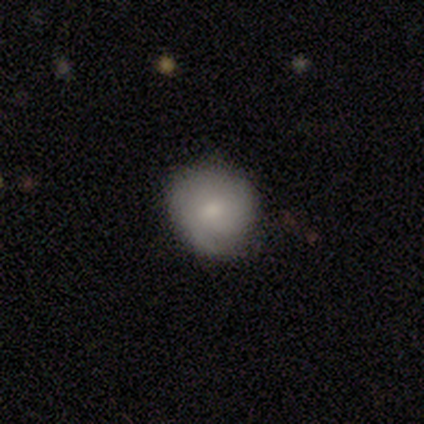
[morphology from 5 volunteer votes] Q: Smooth or featured?
A: featured or disk (60%); runner-up: smooth (40%)
Q: Edge-on disk?
A: no (100%)
Q: Bar?
A: no (67%); runner-up: weak (33%)
Q: Spiral arms?
A: yes (67%); runner-up: no (33%)
Q: Spiral winding?
A: tight (50%); tied with: medium (50%)
Q: Spiral arm count?
A: can't tell (100%)
Q: Bulge size?
A: small (67%); runner-up: moderate (33%)
Q: Merging?
A: none (80%); runner-up: minor disturbance (20%)